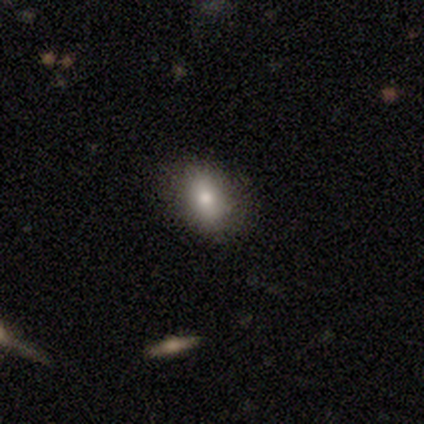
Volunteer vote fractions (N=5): smooth_or_featured: smooth (p=0.60) [alt: featured or disk p=0.20]
how_rounded: in between (p=0.67) [alt: round p=0.33]
merging: none (p=1.00)